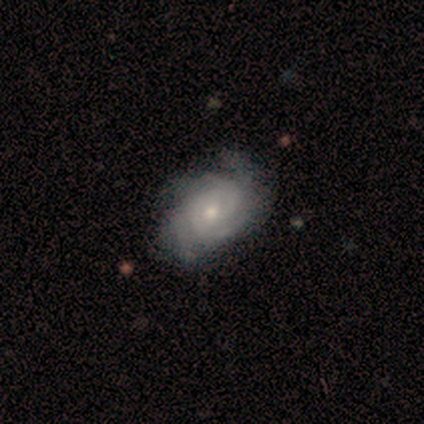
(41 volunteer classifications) Q: Smooth or featured?
A: featured or disk (95%); runner-up: smooth (5%)
Q: Edge-on disk?
A: no (100%)
Q: Bar?
A: no (77%); runner-up: weak (23%)
Q: Spiral arms?
A: yes (95%); runner-up: no (5%)
Q: Spiral winding?
A: tight (59%); runner-up: medium (38%)
Q: Spiral arm count?
A: 3 (38%); runner-up: 4 (22%)
Q: Bulge size?
A: moderate (59%); runner-up: small (38%)
Q: Merging?
A: none (56%); runner-up: major disturbance (17%)